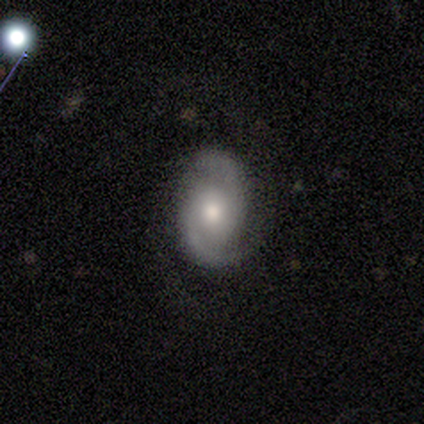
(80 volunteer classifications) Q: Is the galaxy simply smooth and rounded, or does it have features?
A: featured or disk — 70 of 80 (88%).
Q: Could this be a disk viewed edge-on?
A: no — 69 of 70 (99%).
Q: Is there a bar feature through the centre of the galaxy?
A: no — 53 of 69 (77%).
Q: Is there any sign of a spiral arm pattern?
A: yes — 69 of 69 (100%).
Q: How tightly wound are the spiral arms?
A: medium — 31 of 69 (45%).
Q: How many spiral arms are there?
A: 2 — 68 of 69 (99%).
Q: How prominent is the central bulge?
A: moderate — 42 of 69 (61%).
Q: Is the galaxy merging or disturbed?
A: none — 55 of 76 (72%).